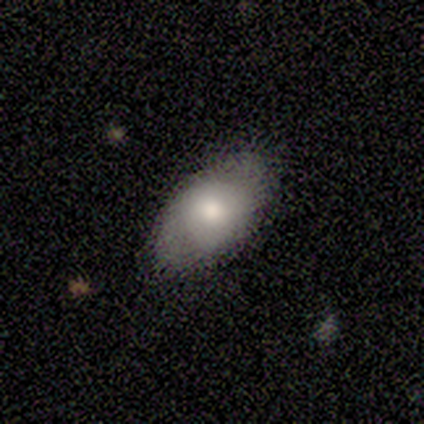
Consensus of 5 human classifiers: Volunteers were most divided on "smooth or featured": smooth: 60%, featured or disk: 20%, star or artifact: 20%. More confident: how rounded — in between (100%); merging — none (75%).